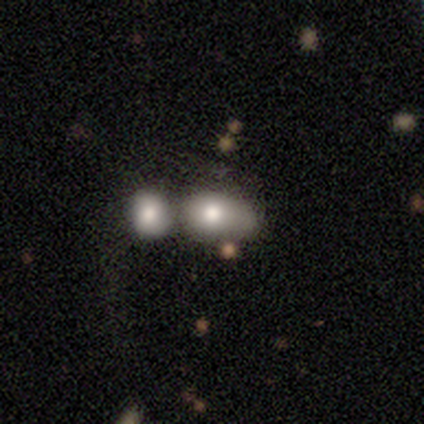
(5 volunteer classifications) smooth 80%, featured or disk 20%, star or artifact 0%. Down the decision tree: how rounded — in between (100%); merging — merger (60%).